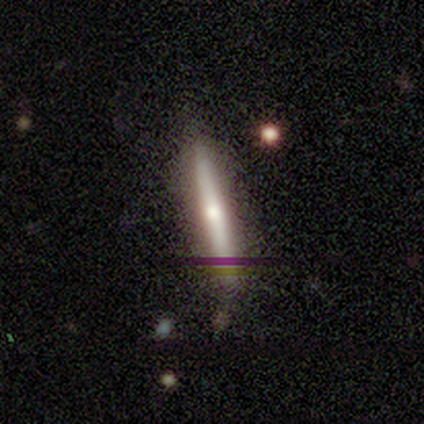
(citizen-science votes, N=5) Smooth or featured: featured or disk — 80% (smooth — 20%)
Edge-on disk: yes — 100%
Edge-on bulge: rounded — 100%
Merging: none — 80% (minor disturbance — 20%)